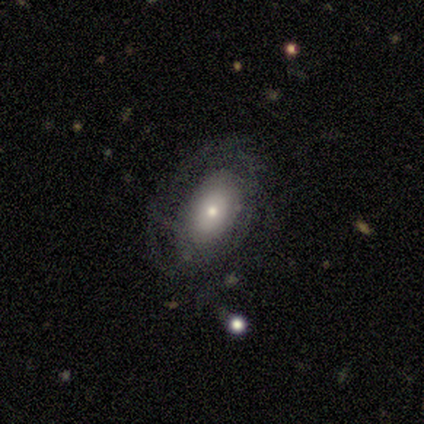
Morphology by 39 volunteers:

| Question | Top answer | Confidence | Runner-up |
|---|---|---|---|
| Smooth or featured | featured or disk | 64% | smooth (36%) |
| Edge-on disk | no | 92% | yes (8%) |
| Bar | no | 87% | weak (9%) |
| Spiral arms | yes | 61% | no (39%) |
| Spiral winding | tight | 50% | medium (43%) |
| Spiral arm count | can't tell | 57% | 3 (14%) |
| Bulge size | small | 52% | moderate (35%) |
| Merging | none | 67% | minor disturbance (21%) |